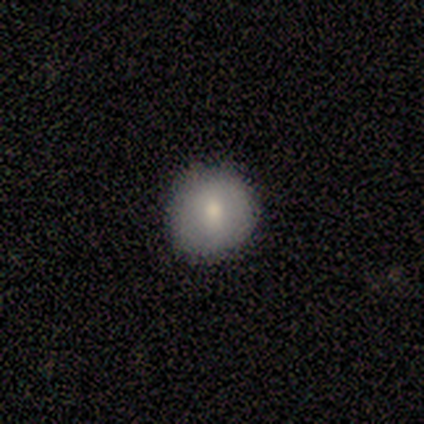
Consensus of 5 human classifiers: This is clearly a smooth galaxy (80%). How rounded: clearly round (100%). Merging: clearly none (100%).